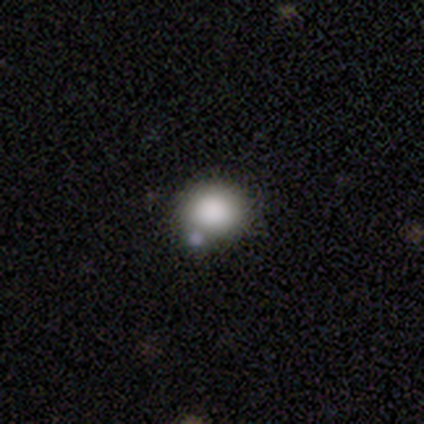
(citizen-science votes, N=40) A smooth galaxy with no disk features (92%) that is round (78%). Merging: none (48%).